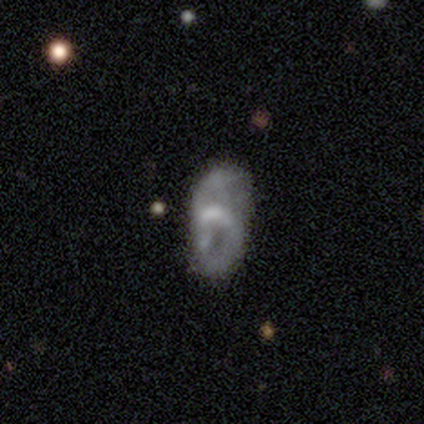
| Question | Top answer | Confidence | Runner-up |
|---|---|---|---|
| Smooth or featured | featured or disk | 65% | smooth (28%) |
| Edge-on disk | no | 100% | — |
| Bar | no | 65% | weak (35%) |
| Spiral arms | yes | 62% | no (38%) |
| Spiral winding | loose | 56% | medium (38%) |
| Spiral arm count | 2 | 56% | can't tell (31%) |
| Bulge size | moderate | 38% | none (35%) |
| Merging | none | 38% | minor disturbance (24%) |